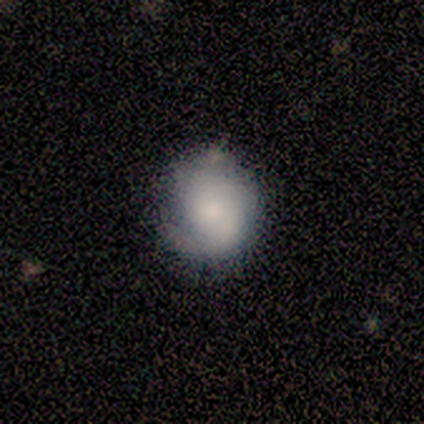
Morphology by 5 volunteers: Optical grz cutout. It shows a smooth galaxy with no disk features (60%) that is round (67%). Merging: minor disturbance (60%).